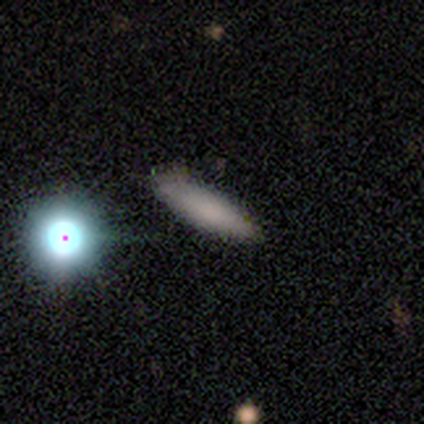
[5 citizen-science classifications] A smooth galaxy with no disk features (60%) that is cigar-shaped (67%). Merging: none (75%).